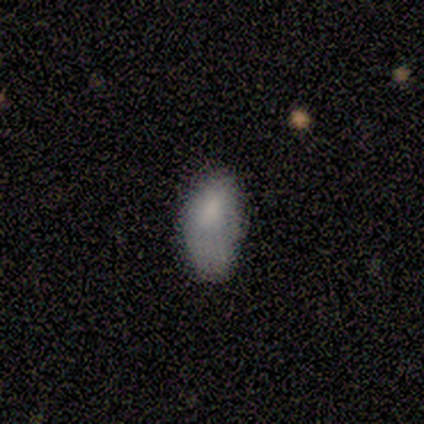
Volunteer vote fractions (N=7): This is likely a smooth galaxy (71%). How rounded: clearly in between (100%). Merging: clearly minor disturbance (83%).